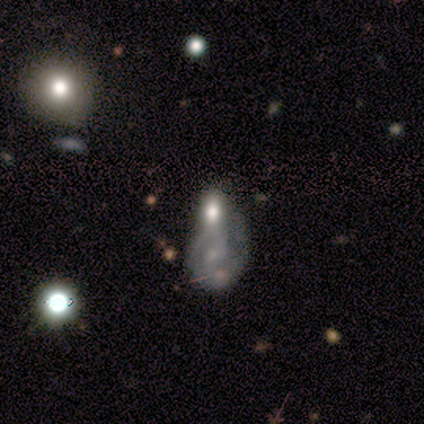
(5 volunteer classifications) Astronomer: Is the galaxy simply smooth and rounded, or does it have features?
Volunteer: featured or disk — 60% (runner-up: smooth, 40%).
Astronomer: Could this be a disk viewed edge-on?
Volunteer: no — 100%.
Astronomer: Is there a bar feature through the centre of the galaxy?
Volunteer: no — 100%.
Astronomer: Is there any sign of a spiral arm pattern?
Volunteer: no — 67%.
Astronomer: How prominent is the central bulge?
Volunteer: none — 67%.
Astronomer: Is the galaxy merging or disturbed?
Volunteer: merger — 80%.